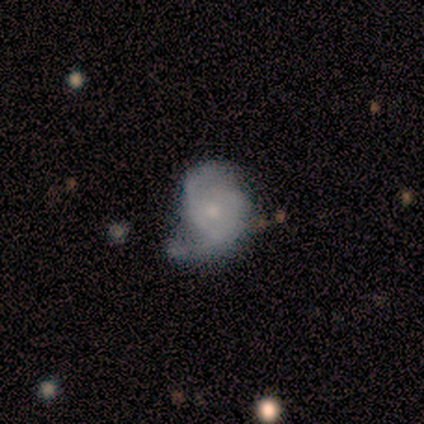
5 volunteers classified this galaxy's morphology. Smooth or featured: smooth — 40% (tied with star or artifact — 40%)
How rounded: round — 100%
Merging: none — 67% (major disturbance — 33%)